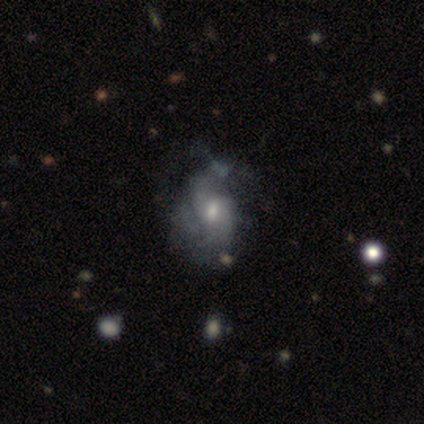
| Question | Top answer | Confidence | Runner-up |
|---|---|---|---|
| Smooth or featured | featured or disk | 60% | smooth (20%) |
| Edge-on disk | no | 100% | — |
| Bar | no | 100% | — |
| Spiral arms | yes | 67% | no (33%) |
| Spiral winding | tight | 50% | tied: loose (50%) |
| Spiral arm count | can't tell | 100% | — |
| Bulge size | small | 67% | moderate (33%) |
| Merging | none | 50% | tied: minor disturbance (50%) |